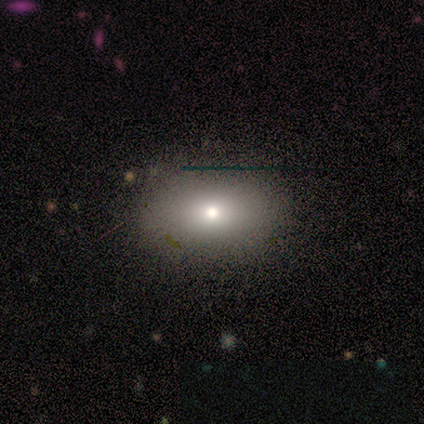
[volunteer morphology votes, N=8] Smooth or featured? smooth (75%)
How rounded? in between (67%)
Merging? none (83%)